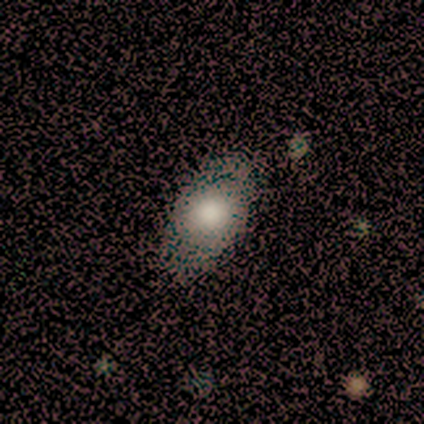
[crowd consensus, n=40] Smooth or featured? smooth (75%)
How rounded? in between (90%)
Merging? none (72%)